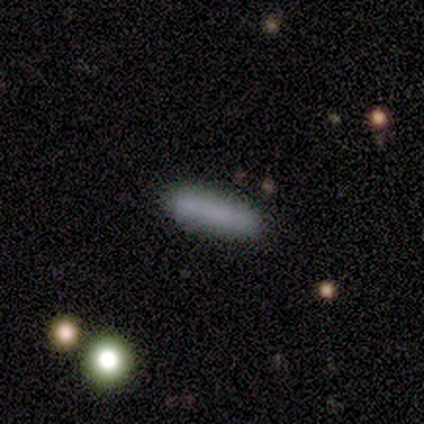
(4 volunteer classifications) Smooth or featured? smooth (50%, tied with featured or disk)
How rounded? cigar-shaped (100%)
Merging? none (75%)